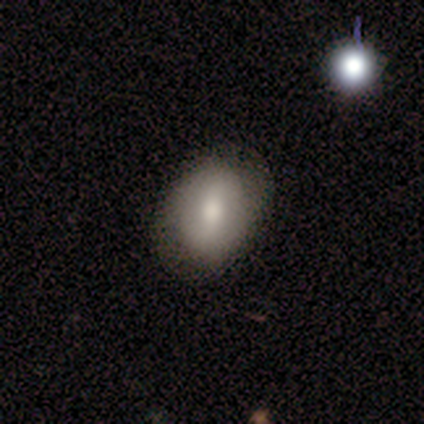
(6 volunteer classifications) Morphology: type=smooth (83%); roundness=in between (100%); merging=minor disturbance (60%).